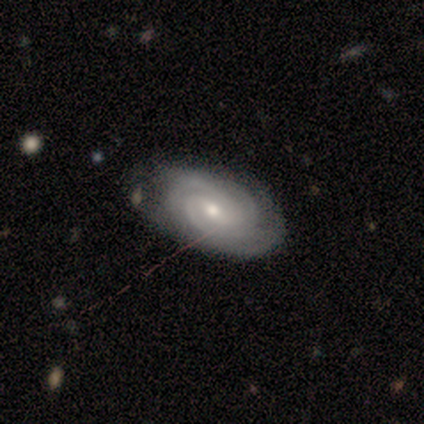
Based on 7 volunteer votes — This is clearly a featured or disk galaxy (100%). It is clearly not viewed edge-on (100%). Bar: marginally no (43%). Spiral arm pattern: clearly yes (100%). Spiral arm count: possibly 3 (57%). Spiral winding: possibly tight (57%). Central bulge: possibly small (57%). Merging: likely none (71%).